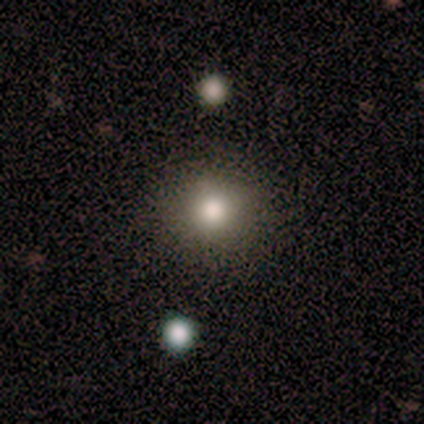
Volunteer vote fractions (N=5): Consensus on every question: smooth or featured — smooth (100%); how rounded — round (100%); merging — none (100%).